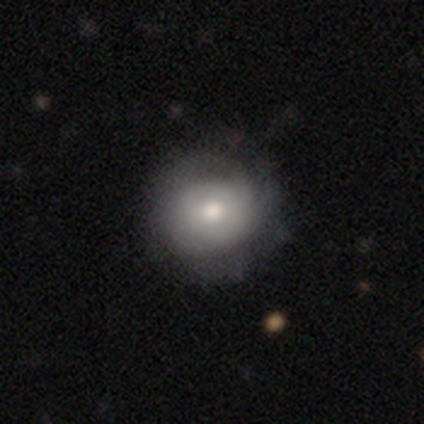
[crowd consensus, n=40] smooth-or-featured: smooth: 62% | featured or disk: 38% | star or artifact: 0%
  how-rounded: round: 92% | in between: 8% | cigar-shaped: 0%
  merging: none: 52% | minor disturbance: 18% | major disturbance: 5% | merger: 0%